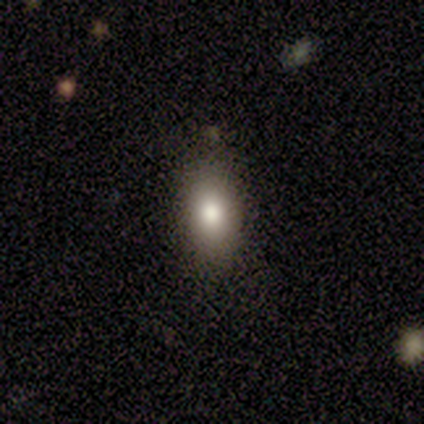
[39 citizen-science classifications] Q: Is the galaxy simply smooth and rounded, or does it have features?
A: smooth — 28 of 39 (72%).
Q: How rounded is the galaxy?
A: in between — 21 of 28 (75%).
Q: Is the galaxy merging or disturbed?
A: none — 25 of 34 (74%).